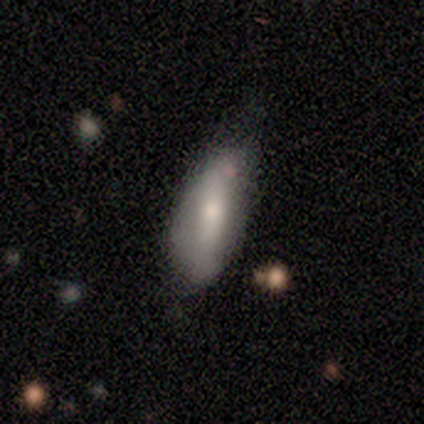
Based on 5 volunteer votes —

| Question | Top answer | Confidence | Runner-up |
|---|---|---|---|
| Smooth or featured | featured or disk | 60% | smooth (40%) |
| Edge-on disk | yes | 67% | no (33%) |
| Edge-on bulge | none | 50% | tied: rounded (50%) |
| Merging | none | 100% | — |